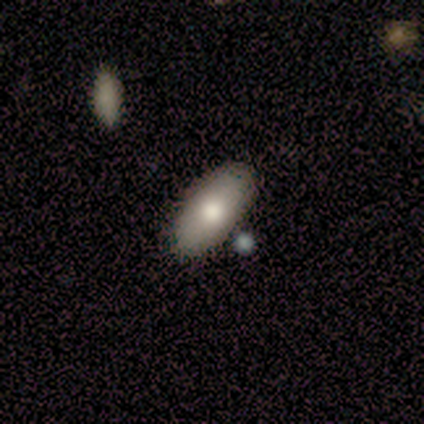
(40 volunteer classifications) Overall: smooth (62%). How rounded: in between (88%). Merging: none (75%).